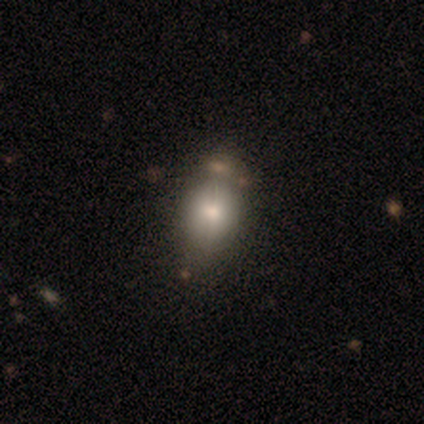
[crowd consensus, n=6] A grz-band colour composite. It shows a smooth galaxy with no disk features (83%) that is in between round and cigar-shaped (60%). Merging: none (100%).